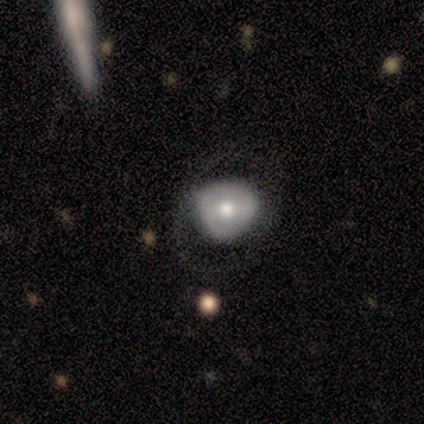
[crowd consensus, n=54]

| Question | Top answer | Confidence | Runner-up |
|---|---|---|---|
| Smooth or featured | featured or disk | 59% | smooth (37%) |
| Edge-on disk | no | 100% | — |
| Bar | weak | 44% | no (38%) |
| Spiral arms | no | 69% | yes (31%) |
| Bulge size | moderate | 78% | large (9%) |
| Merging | none | 52% | minor disturbance (23%) |